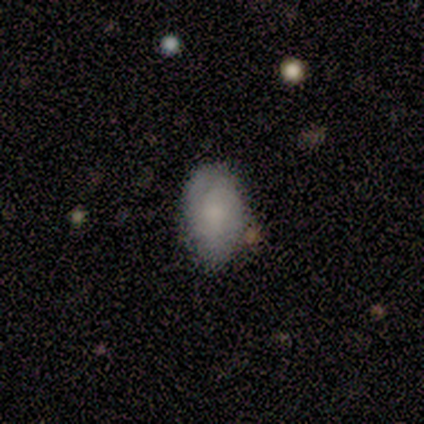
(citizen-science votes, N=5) Smooth or featured? 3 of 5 (60%) said featured or disk. Edge-on disk? 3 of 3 (100%) said no. Bar? 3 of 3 (100%) said no. Spiral arms? 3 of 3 (100%) said yes. Spiral winding? 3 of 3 (100%) said tight. Spiral arm count? 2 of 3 (67%) said 2. Bulge size? 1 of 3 (33%, tied with moderate and small) said large. Merging? 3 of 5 (60%) said none.